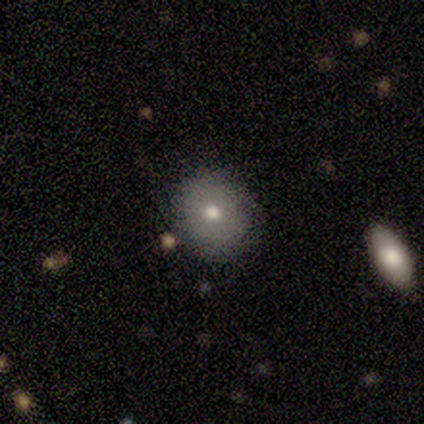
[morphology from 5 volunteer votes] smooth_or_featured: smooth (p=0.80) [alt: featured or disk p=0.20]
how_rounded: round (p=1.00)
merging: none (p=0.80) [alt: minor disturbance p=0.20]